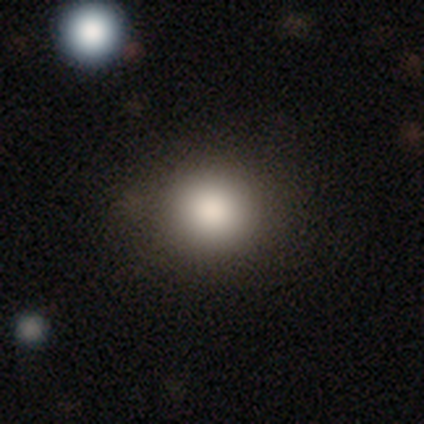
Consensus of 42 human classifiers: Overall: smooth (90%). How rounded: round (92%). Merging: none (93%).